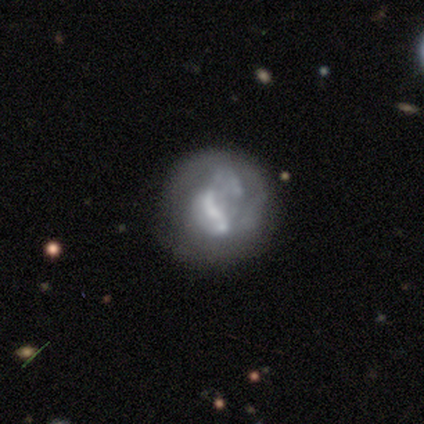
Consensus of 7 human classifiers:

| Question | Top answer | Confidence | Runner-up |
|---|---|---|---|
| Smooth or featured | featured or disk | 71% | smooth (29%) |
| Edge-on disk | no | 100% | — |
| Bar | no | 60% | strong (40%) |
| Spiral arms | no | 80% | yes (20%) |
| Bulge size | moderate | 60% | none (40%) |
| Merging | none | 86% | major disturbance (14%) |